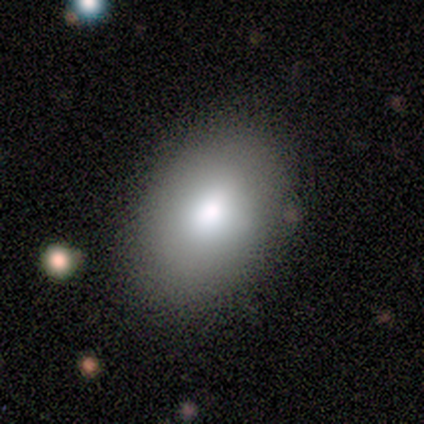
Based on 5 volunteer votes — smooth 60%, featured or disk 20%, star or artifact 20%. Down the decision tree: how rounded — in between (100%); merging — none (100%).